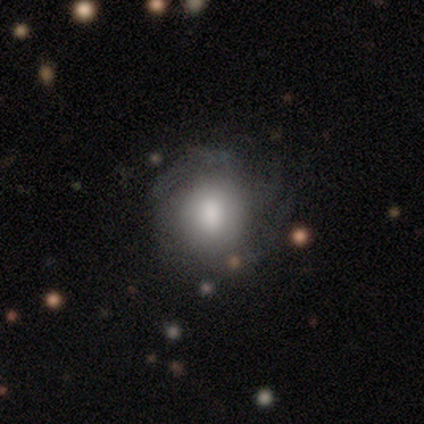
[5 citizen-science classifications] A featured or disk galaxy (80%) with a weak bar (50%, tied with no), 3 (50%, tied with 4) medium (50%, tied with loose) spiral arms (50%, tied with no) and a large central bulge (75%). Merging: none (60%).